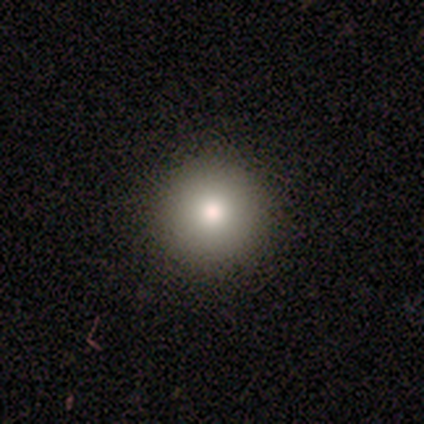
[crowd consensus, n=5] Q: Smooth or featured?
A: smooth (100%)
Q: How rounded?
A: round (100%)
Q: Merging?
A: none (80%); runner-up: minor disturbance (20%)